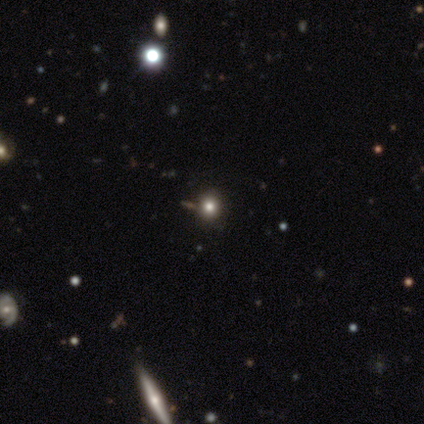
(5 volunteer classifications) This appears to be a smooth galaxy with no disk features (80%) that is round (100%). Merging: none (100%).